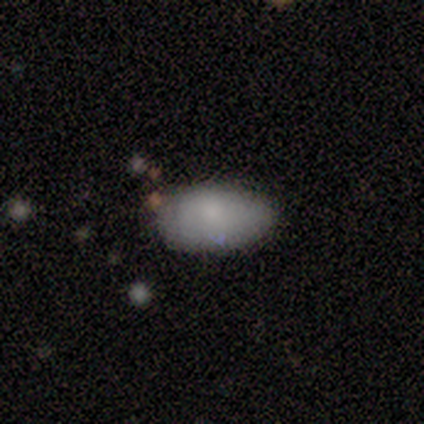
This appears to be a smooth galaxy with no disk features (80%) that is in between round and cigar-shaped (100%). Merging: none (80%).